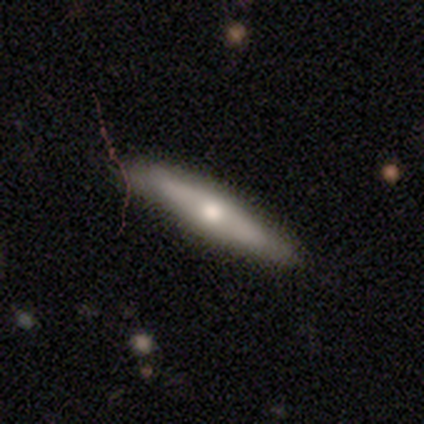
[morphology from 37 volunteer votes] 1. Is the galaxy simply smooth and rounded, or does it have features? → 57% featured or disk, 38% smooth, 5% star or artifact.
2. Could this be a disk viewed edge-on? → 81% yes, 19% no.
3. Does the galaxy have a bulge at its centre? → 65% rounded, 24% none, 12% boxy.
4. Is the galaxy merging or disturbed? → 49% none, 11% minor disturbance, 3% merger, 0% major disturbance.